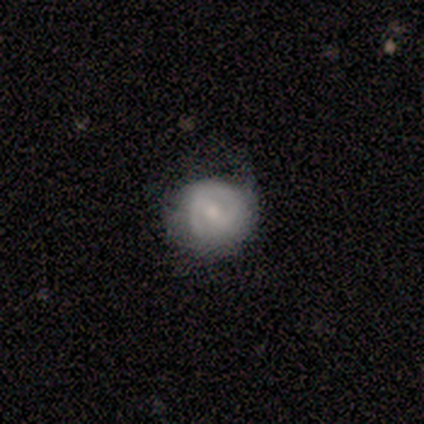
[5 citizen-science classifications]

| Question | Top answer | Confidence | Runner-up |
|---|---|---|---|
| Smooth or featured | featured or disk | 80% | smooth (20%) |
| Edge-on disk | no | 100% | — |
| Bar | weak | 75% | no (25%) |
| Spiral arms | yes | 50% | tied: no (50%) |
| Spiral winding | medium | 50% | tied: loose (50%) |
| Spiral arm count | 2 | 100% | — |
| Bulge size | small | 75% | large (25%) |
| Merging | none | 100% | — |